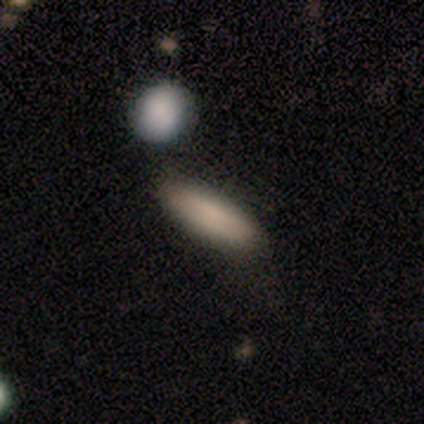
Morphology: type=smooth (85%); roundness=cigar-shaped (61%); merging=none (80%).